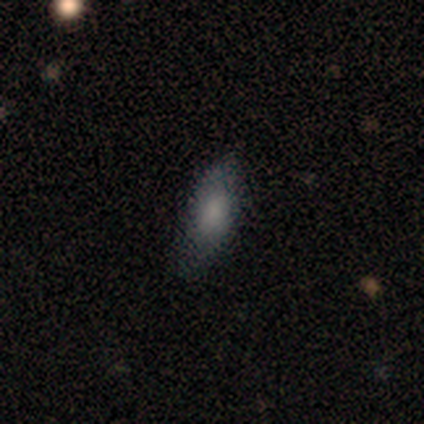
This is clearly a smooth galaxy (100%). How rounded: clearly in between (85%). Merging: likely none (77%).